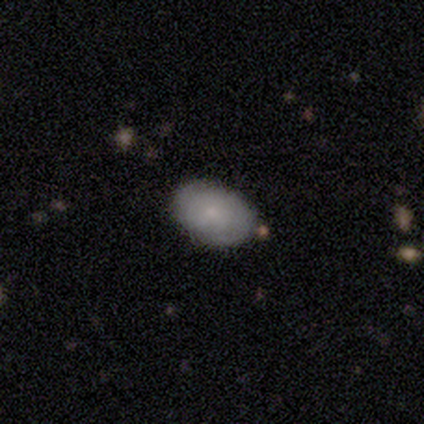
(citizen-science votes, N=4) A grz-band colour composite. It shows a smooth galaxy with no disk features (75%) that is in between round and cigar-shaped (100%). Merging: none (100%).